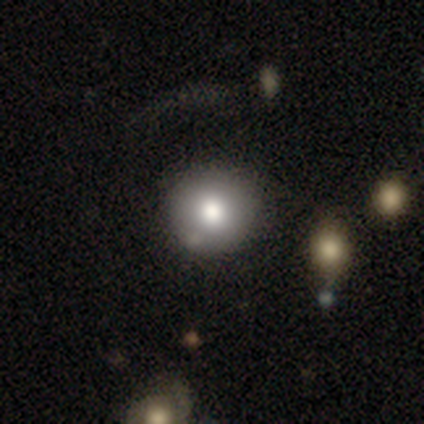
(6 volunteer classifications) A smooth galaxy with no disk features (50%, tied with featured or disk) that is round (100%).

Vote fractions:
- Smooth or featured? smooth: 50% (tied) / featured or disk: 50% (tied) / star or artifact: 0%
- How rounded? round: 100% / in between: 0% / cigar-shaped: 0%
- Merging? none: 50% (tied) / minor disturbance: 50% (tied) / major disturbance: 0% / merger: 0%